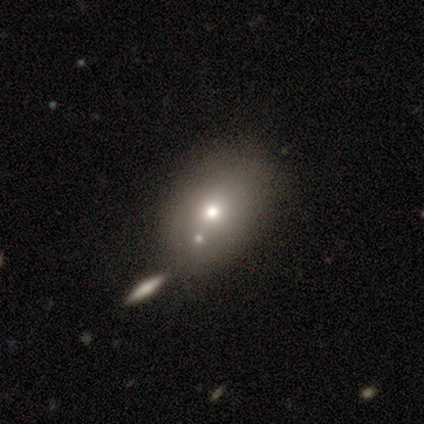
This is clearly a smooth galaxy (80%). How rounded: possibly round (50%, tied with in between). Merging: possibly none (50%).